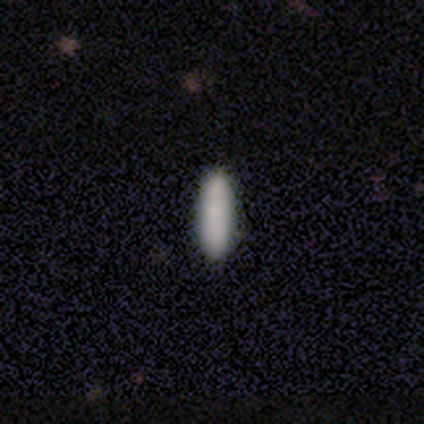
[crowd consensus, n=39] This is clearly a smooth galaxy (85%). How rounded: likely cigar-shaped (64%). Merging: clearly none (89%).